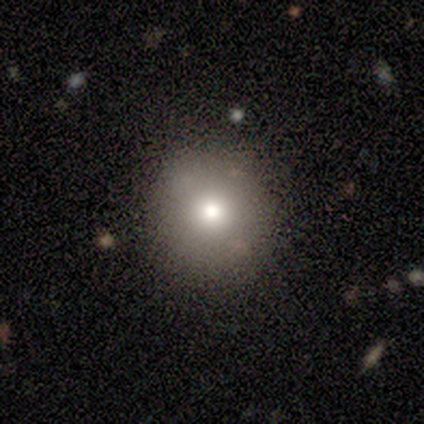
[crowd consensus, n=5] Morphology: type=featured or disk (40%, tied with star or artifact); edge-on=no (100%); bar=no (100%); spiral arms=no (100%); bulge=moderate (100%); merging=none (100%).